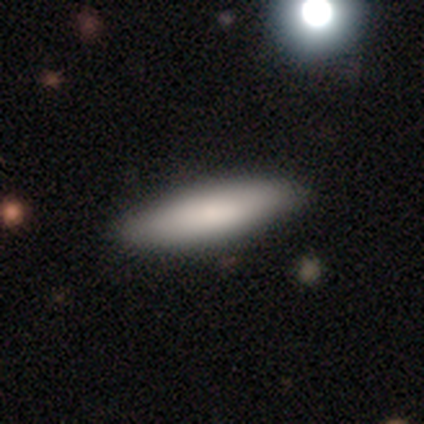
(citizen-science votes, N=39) Morphology: type=smooth (74%); roundness=cigar-shaped (66%); merging=none (89%).